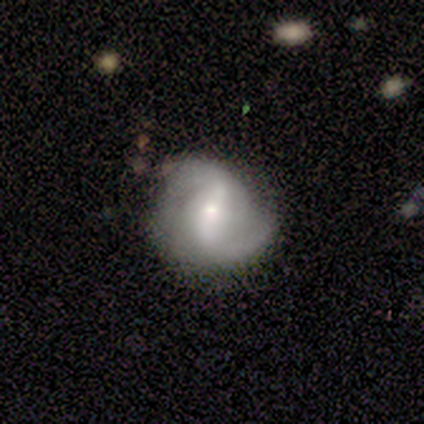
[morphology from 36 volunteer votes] type=featured or disk (81%); edge-on=no (100%); bar=strong (59%); spiral arms=yes (93%); winding=medium (48%); arm count=2 (81%); bulge=moderate (41%); merging=none (60%).